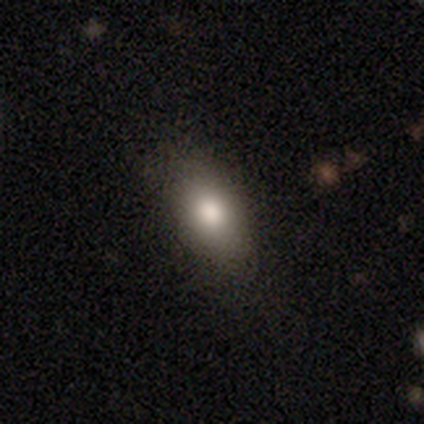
Smooth or featured: smooth — 88% (featured or disk — 8%)
How rounded: in between — 86% (round — 9%)
Merging: none — 79% (minor disturbance — 16%)